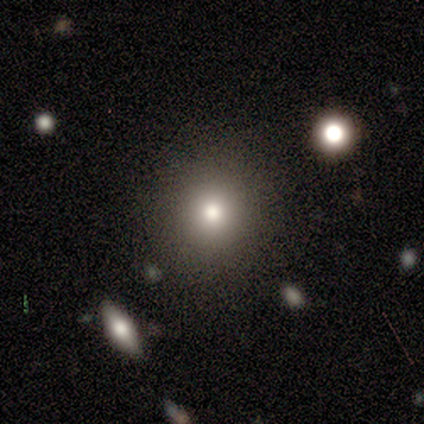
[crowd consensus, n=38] smooth 63%, featured or disk 29%, star or artifact 8%. Down the decision tree: how rounded — round (83%); merging — none (83%).